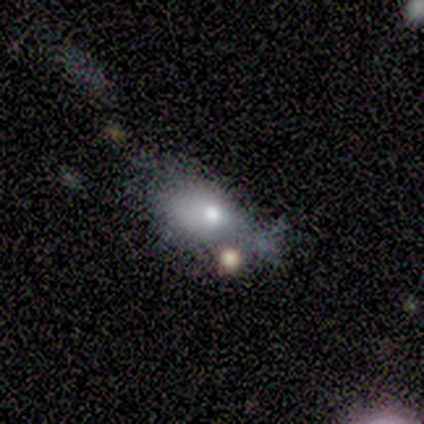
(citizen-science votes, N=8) Morphology: type=smooth (75%); roundness=in between (67%); merging=none (50%).